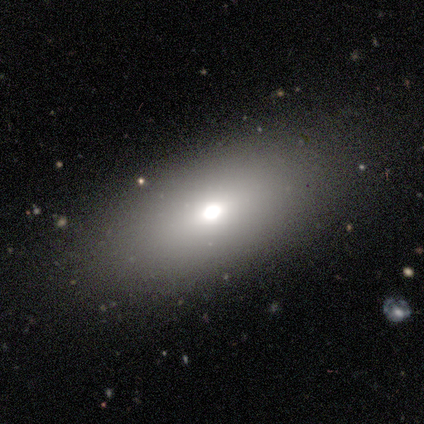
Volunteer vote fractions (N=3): Smooth or featured: smooth — 67% (featured or disk — 33%)
How rounded: in between — 100%
Merging: minor disturbance — 67% (none — 33%)